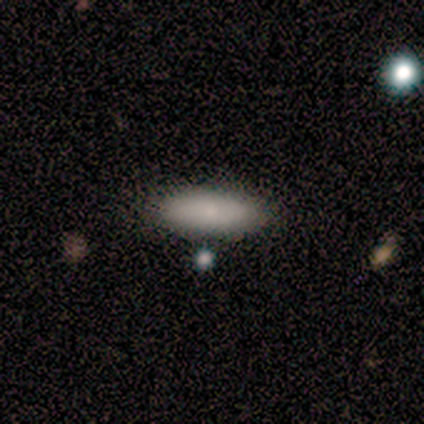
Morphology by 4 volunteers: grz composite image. It shows a smooth galaxy with no disk features (100%) that is in between round and cigar-shaped (100%). Merging: none (100%).